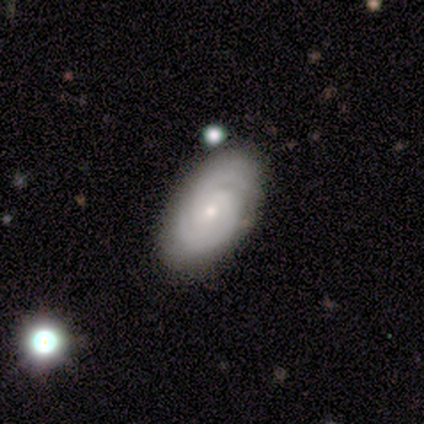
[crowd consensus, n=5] Smooth or featured?
  - featured or disk: 80% *
  - smooth: 20%
  - star or artifact: 0%
Edge-on disk?
  - no: 100% *
  - yes: 0%
Bar?
  - no: 75% *
  - weak: 25%
  - strong: 0%
Spiral arms?
  - yes: 100% *
  - no: 0%
Spiral winding?
  - tight: 75% *
  - medium: 25%
  - loose: 0%
Spiral arm count?
  - 2: 100% *
  - 1: 0%
  - 3: 0%
  - 4: 0%
  - more than 4: 0%
  - can't tell: 0%
Bulge size?
  - small: 75% *
  - moderate: 25%
  - dominant: 0%
  - large: 0%
  - none: 0%
Merging?
  - none: 100% *
  - minor disturbance: 0%
  - major disturbance: 0%
  - merger: 0%